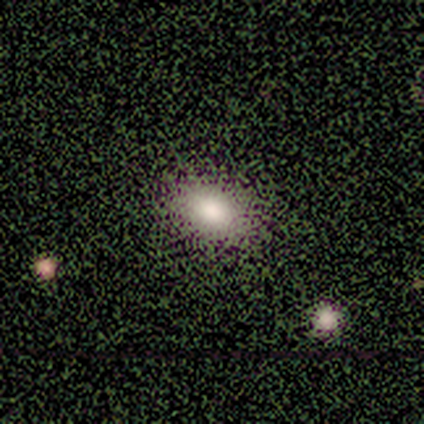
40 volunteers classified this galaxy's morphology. Smooth or featured? smooth (75%)
How rounded? in between (83%)
Merging? none (48%)